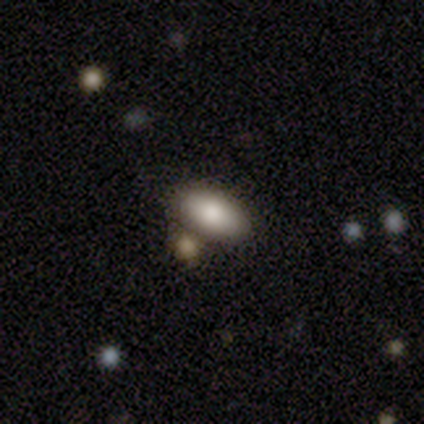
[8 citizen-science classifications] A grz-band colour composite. It shows a smooth galaxy with no disk features (100%) that is in between round and cigar-shaped (100%). Merging: none (75%).